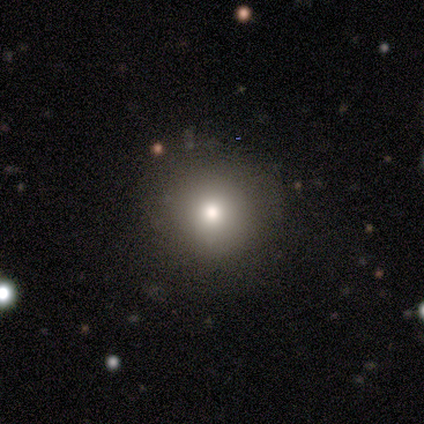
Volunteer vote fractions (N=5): smooth-or-featured: smooth: 100% | featured or disk: 0% | star or artifact: 0%
  how-rounded: round: 100% | in between: 0% | cigar-shaped: 0%
  merging: none: 80% | merger: 20% | minor disturbance: 0% | major disturbance: 0%